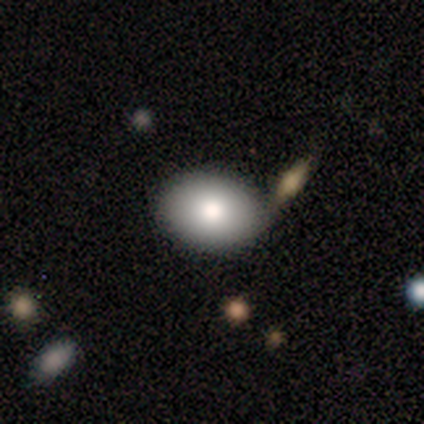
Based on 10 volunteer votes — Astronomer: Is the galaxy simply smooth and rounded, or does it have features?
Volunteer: smooth — 60%.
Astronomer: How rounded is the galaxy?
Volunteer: in between — 100%.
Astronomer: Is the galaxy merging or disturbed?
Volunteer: none — 75%.